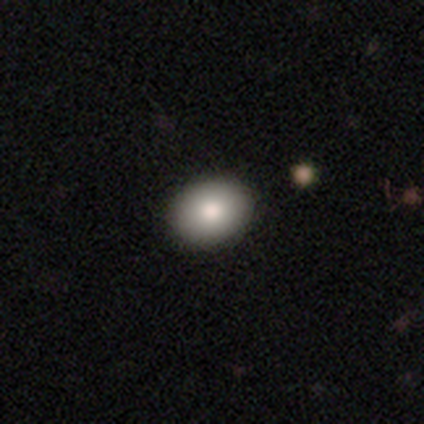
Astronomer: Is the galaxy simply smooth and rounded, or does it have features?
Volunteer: smooth — 50% (runner-up: featured or disk, 33%).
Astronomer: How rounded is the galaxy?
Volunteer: round — 67%.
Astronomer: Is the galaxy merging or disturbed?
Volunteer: none — 80%.